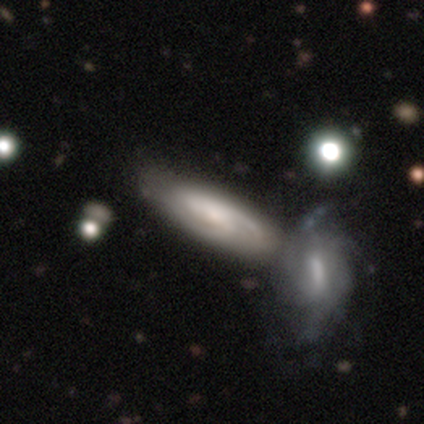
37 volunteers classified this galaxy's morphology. featured or disk 68%, smooth 32%, star or artifact 0%. Down the decision tree: edge-on disk — no (80%); bar — no (50%); spiral arms — yes (100%); spiral arm count — 2 (45%); spiral winding — medium (55%); bulge size — small (60%); merging — none (46%).